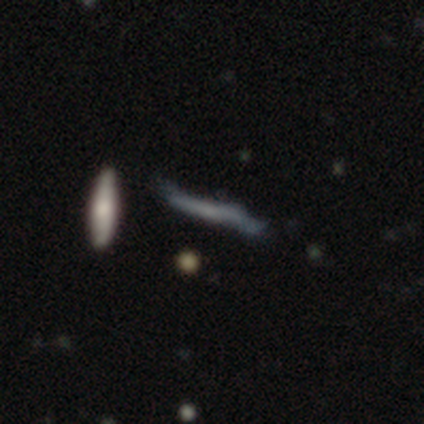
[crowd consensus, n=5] featured or disk 40% (tied), star or artifact 40% (tied), smooth 20%. Down the decision tree: edge-on disk — yes (100%); edge-on bulge — none (100%); merging — none (33%, tied with minor disturbance and merger).